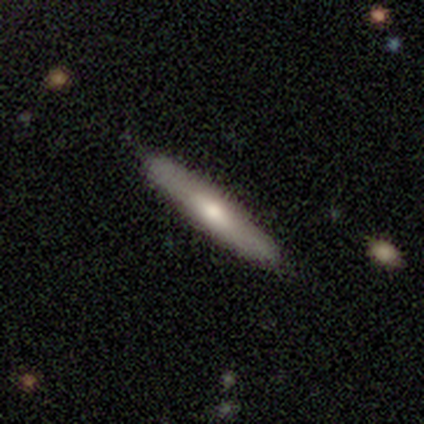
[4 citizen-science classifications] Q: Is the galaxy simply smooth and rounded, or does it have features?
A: smooth — 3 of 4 (75%).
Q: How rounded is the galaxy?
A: cigar-shaped — 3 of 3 (100%).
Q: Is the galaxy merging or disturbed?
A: none — 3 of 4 (75%).